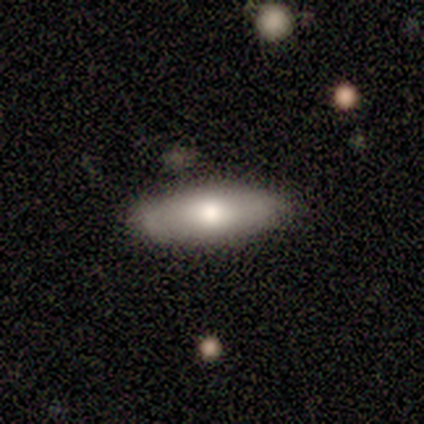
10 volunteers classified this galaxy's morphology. smooth_or_featured: smooth (p=0.90) [alt: featured or disk p=0.10]
how_rounded: in between (p=0.67) [alt: cigar-shaped p=0.33]
merging: none (p=0.80) [alt: minor disturbance p=0.10]